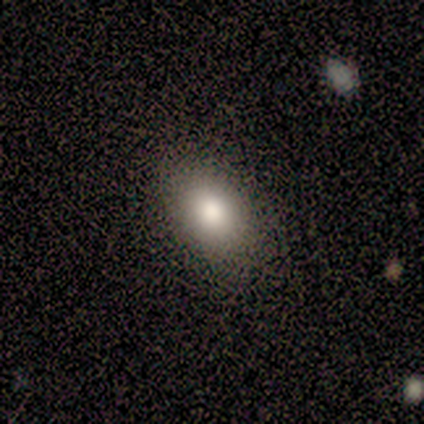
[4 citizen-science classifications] Smooth or featured: smooth — 75% (star or artifact — 25%)
How rounded: in between — 100%
Merging: none — 67% (minor disturbance — 33%)